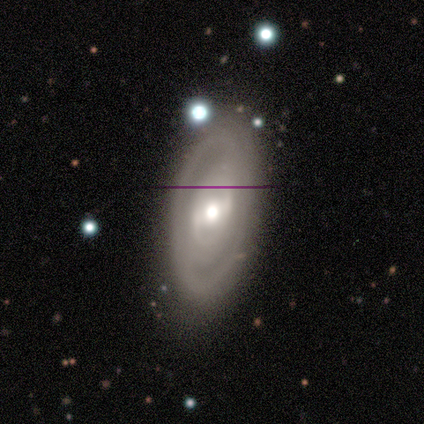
A featured or disk galaxy (100%) with a weak bar (60%), 2 (75%) tight (100%) spiral arms (80%) and a moderate central bulge (80%).

Vote fractions:
- Smooth or featured? featured or disk: 100% / smooth: 0% / star or artifact: 0%
- Edge-on disk? no: 100% / yes: 0%
- Bar? weak: 60% / strong: 20% / no: 20%
- Spiral arms? yes: 80% / no: 20%
- Spiral winding? tight: 100% / medium: 0% / loose: 0%
- Spiral arm count? 2: 75% / 1: 25% / 3: 0% / 4: 0% / more than 4: 0% / can't tell: 0%
- Bulge size? moderate: 80% / large: 20% / dominant: 0% / small: 0% / none: 0%
- Merging? none: 80% / minor disturbance: 20% / major disturbance: 0% / merger: 0%